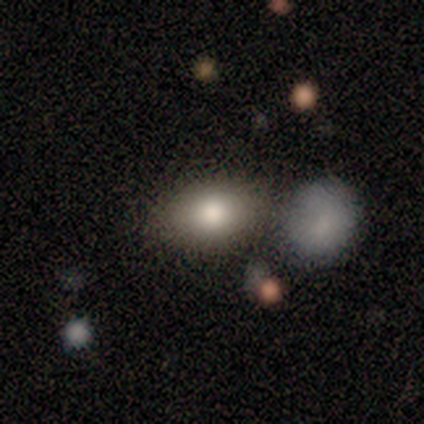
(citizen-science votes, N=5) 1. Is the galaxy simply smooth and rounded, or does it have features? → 40% smooth (tied), 40% featured or disk (tied), 20% star or artifact.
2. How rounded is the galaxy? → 100% in between, 0% round, 0% cigar-shaped.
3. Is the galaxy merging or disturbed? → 100% none, 0% minor disturbance, 0% major disturbance, 0% merger.